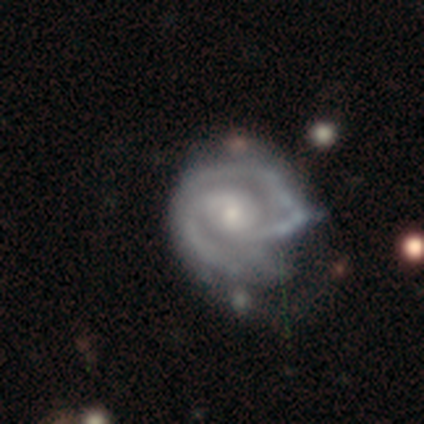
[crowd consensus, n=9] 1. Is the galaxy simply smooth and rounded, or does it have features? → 78% featured or disk, 11% smooth, 11% star or artifact.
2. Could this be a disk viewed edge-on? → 100% no, 0% yes.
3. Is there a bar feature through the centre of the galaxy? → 71% no, 29% weak, 0% strong.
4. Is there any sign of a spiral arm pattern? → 100% yes, 0% no.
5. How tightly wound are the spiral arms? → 57% tight, 29% medium, 14% loose.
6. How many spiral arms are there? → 71% 2, 29% can't tell, 0% 1, 0% 3, 0% 4, 0% more than 4.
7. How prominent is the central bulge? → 71% small, 29% moderate, 0% dominant, 0% large, 0% none.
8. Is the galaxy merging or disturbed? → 50% minor disturbance, 38% major disturbance, 12% merger, 0% none.